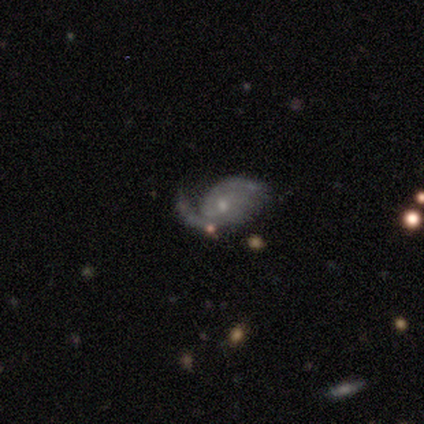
A featured or disk galaxy (80%) with a weak bar (75%), 2 (75%) tight (50%) spiral arms (100%) and a small central bulge (50%). Merging: none (60%).